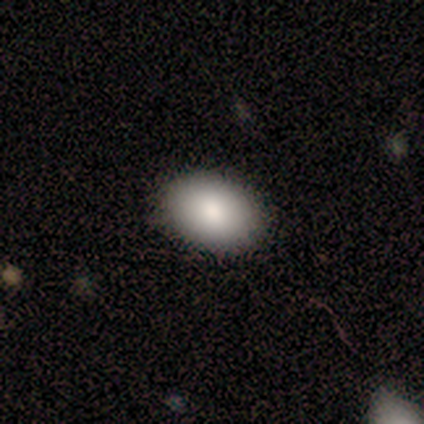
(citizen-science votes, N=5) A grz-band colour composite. It shows a smooth galaxy with no disk features (80%) that is in between round and cigar-shaped (100%). Merging: none (100%).